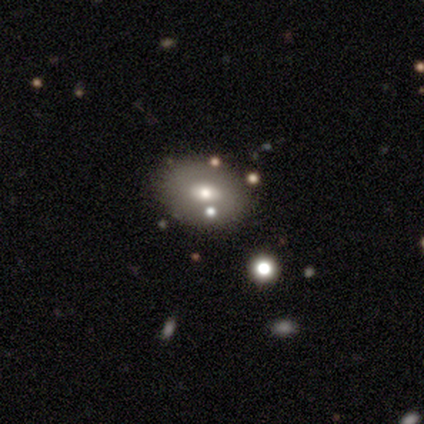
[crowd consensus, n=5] Smooth or featured? smooth (60%)
How rounded? in between (67%)
Merging? none (60%)